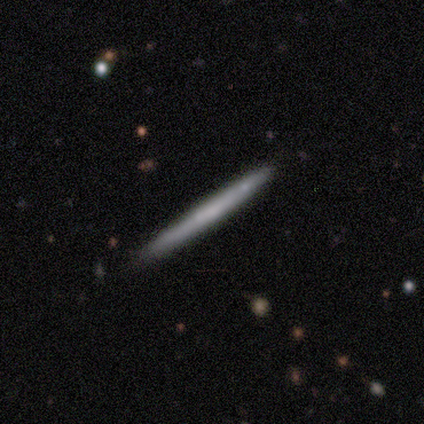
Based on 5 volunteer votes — Smooth or featured: smooth — 80% (featured or disk — 20%)
How rounded: cigar-shaped — 100%
Merging: none — 80% (minor disturbance — 20%)